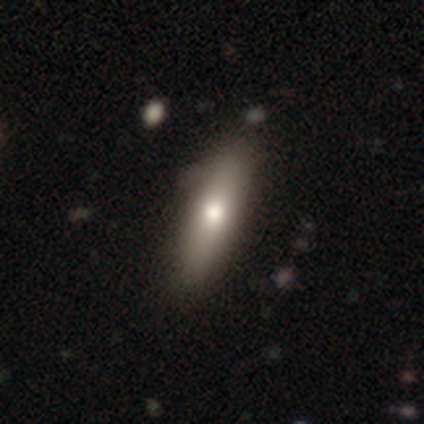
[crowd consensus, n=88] Q: Smooth or featured?
A: smooth (78%); runner-up: featured or disk (20%)
Q: How rounded?
A: cigar-shaped (70%); runner-up: in between (30%)
Q: Merging?
A: none (86%); runner-up: minor disturbance (13%)